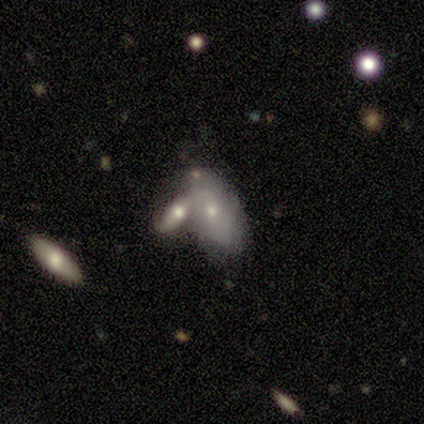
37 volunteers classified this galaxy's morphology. smooth_or_featured: smooth (p=0.73) [alt: featured or disk p=0.27]
how_rounded: in between (p=0.93) [alt: cigar-shaped p=0.07]
merging: merger (p=0.62) [alt: none p=0.32]